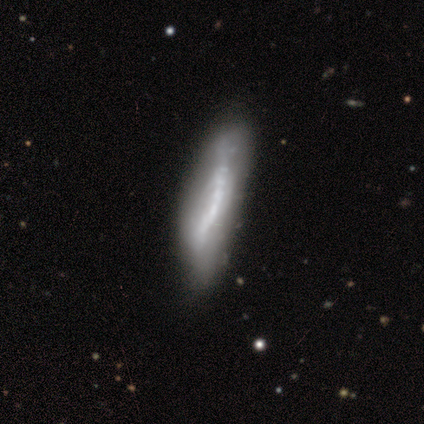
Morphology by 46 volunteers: Smooth or featured: featured or disk — 67% (smooth — 28%)
Edge-on disk: no — 58% (yes — 42%)
Bar: no — 61% (strong — 28%)
Spiral arms: no — 72% (yes — 28%)
Bulge size: none — 44% (small — 28%)
Merging: none — 59% (minor disturbance — 25%)